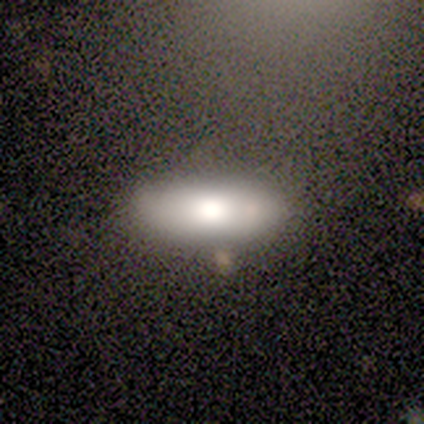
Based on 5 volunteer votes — Smooth or featured?
  - featured or disk: 60% *
  - smooth: 20%
  - star or artifact: 20%
Edge-on disk?
  - yes: 67% *
  - no: 33%
Edge-on bulge?
  - rounded: 100% *
  - boxy: 0%
  - none: 0%
Merging?
  - none: 100% *
  - minor disturbance: 0%
  - major disturbance: 0%
  - merger: 0%